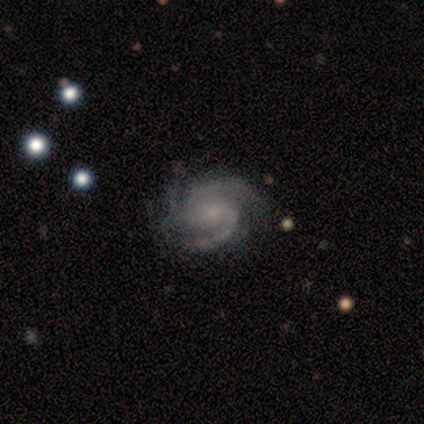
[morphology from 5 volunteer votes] This is clearly a featured or disk galaxy (100%). It is clearly not viewed edge-on (100%). Bar: clearly no (80%). Spiral arm pattern: clearly yes (100%). Spiral arm count: clearly 3 (100%). Spiral winding: likely tight (60%). Central bulge: likely moderate (60%). Merging: clearly none (100%).